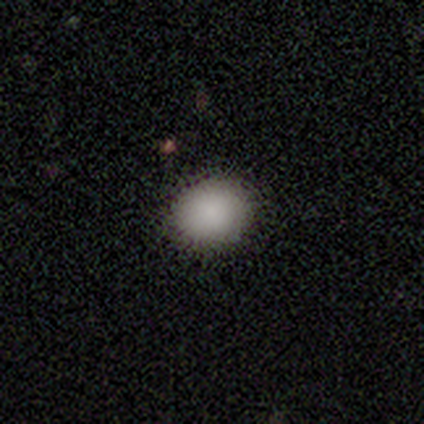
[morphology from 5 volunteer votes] Overall: smooth (100%). How rounded: round (40%, tied with in between). Merging: none (100%).